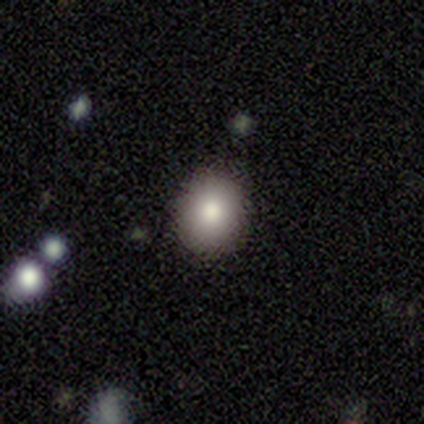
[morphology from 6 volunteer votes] type=smooth (83%); roundness=round (80%); merging=none (100%).